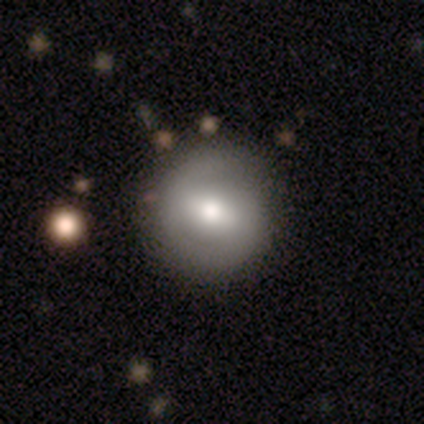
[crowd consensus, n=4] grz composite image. It shows a smooth galaxy with no disk features (75%) that is round (100%). Merging: none (75%).